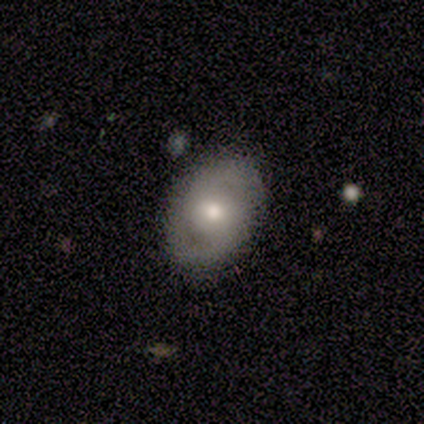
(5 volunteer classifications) Q: Smooth or featured?
A: smooth (80%); runner-up: featured or disk (20%)
Q: How rounded?
A: in between (50%); runner-up: round (25%)
Q: Merging?
A: minor disturbance (60%); runner-up: none (40%)